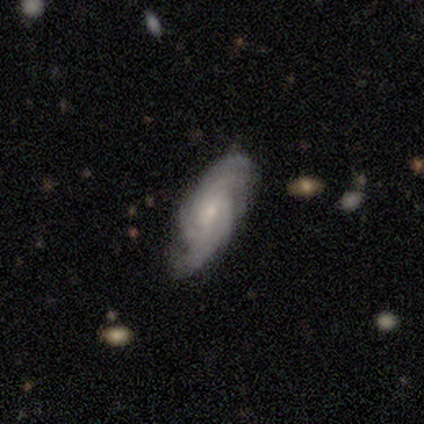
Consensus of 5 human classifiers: Smooth or featured? 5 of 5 (100%) said featured or disk. Edge-on disk? 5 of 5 (100%) said no. Bar? 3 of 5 (60%) said weak. Spiral arms? 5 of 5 (100%) said yes. Spiral winding? 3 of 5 (60%) said tight. Spiral arm count? 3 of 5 (60%) said can't tell. Bulge size? 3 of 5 (60%) said small. Merging? 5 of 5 (100%) said none.